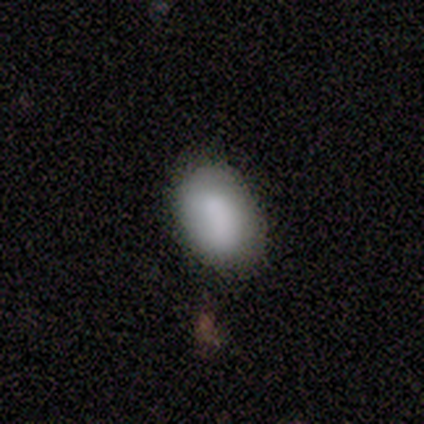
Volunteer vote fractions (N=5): Smooth or featured? 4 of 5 (80%) said smooth. How rounded? 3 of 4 (75%) said in between. Merging? 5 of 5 (100%) said none.